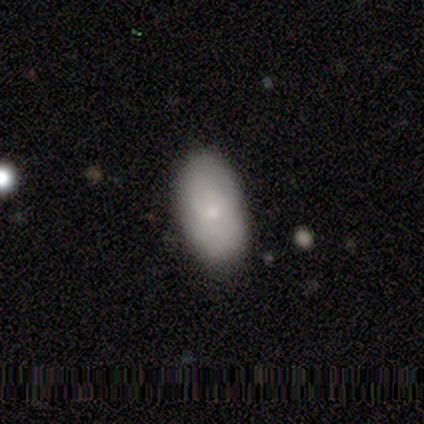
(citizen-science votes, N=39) This appears to be a smooth galaxy with no disk features (72%) that is in between round and cigar-shaped (89%). Merging: none (87%).